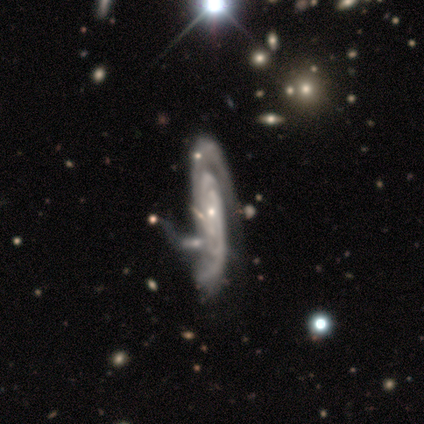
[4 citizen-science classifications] Q: Smooth or featured?
A: featured or disk (100%)
Q: Edge-on disk?
A: yes (75%); runner-up: no (25%)
Q: Edge-on bulge?
A: none (67%); runner-up: rounded (33%)
Q: Merging?
A: minor disturbance (75%); runner-up: none (25%)